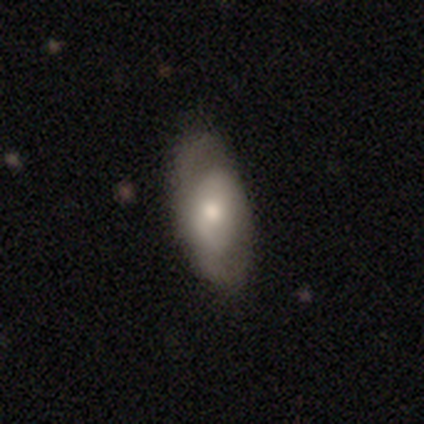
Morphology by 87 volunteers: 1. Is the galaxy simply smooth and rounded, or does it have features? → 47% featured or disk, 46% smooth, 7% star or artifact.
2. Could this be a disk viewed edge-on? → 90% no, 10% yes.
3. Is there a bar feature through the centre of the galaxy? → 68% no, 24% weak, 8% strong.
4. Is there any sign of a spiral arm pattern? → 59% no, 41% yes.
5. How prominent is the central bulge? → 57% moderate, 32% small, 8% large, 3% none, 0% dominant.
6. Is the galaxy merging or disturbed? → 77% none, 17% minor disturbance, 6% major disturbance, 0% merger.